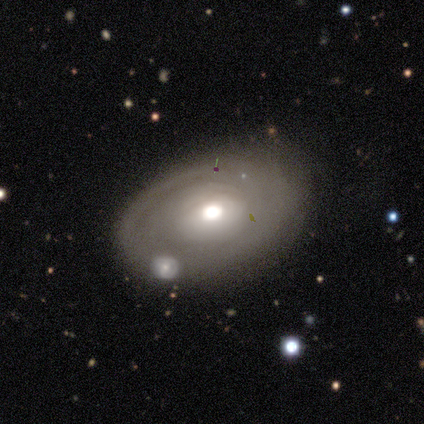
A featured or disk galaxy (70%) with no bar (100%), tight (75%) spiral arms (67%) and a moderate central bulge (67%). Merging: none (67%).